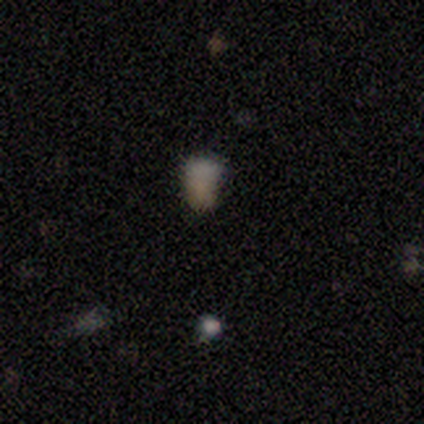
A smooth galaxy with no disk features (36%, tied with star or artifact) that is in between round and cigar-shaped (100%).

Vote fractions:
- Smooth or featured? smooth: 36% (tied) / star or artifact: 36% (tied) / featured or disk: 27%
- How rounded? in between: 100% / round: 0% / cigar-shaped: 0%
- Merging? none: 43% / minor disturbance: 29% / merger: 29% / major disturbance: 0%